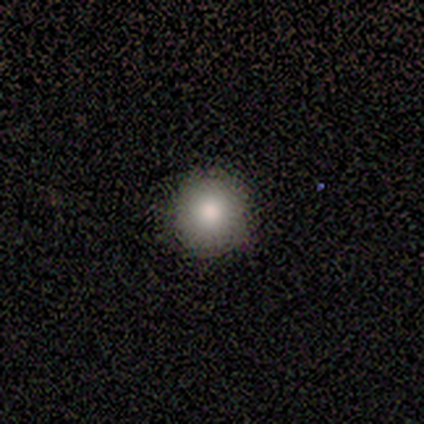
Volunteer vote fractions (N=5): Smooth or featured: smooth — 100%
How rounded: round — 100%
Merging: none — 100%